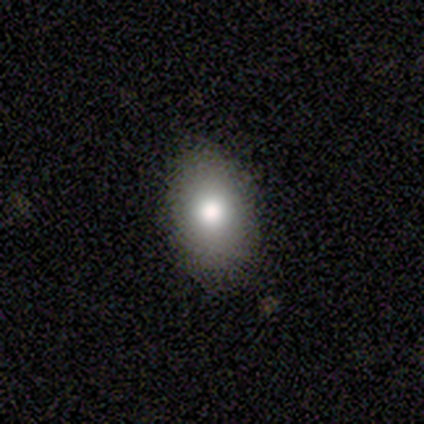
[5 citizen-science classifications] Overall: smooth (100%). How rounded: in between (100%). Merging: none (60%; minor disturbance 40%).